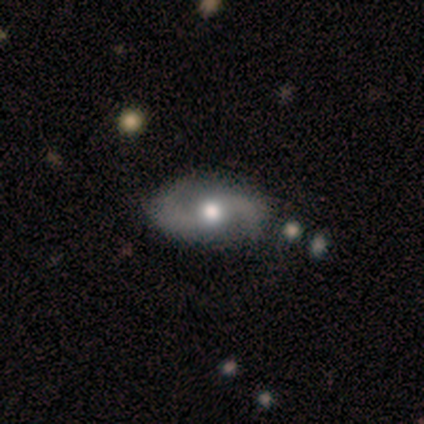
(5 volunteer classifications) This is likely a featured or disk galaxy (60%). It is clearly not viewed edge-on (100%). Bar: likely no (67%). Spiral arm pattern: clearly yes (100%). Spiral arm count: clearly 2 (100%). Spiral winding: likely medium (67%). Central bulge: clearly moderate (100%). Merging: likely none (67%).